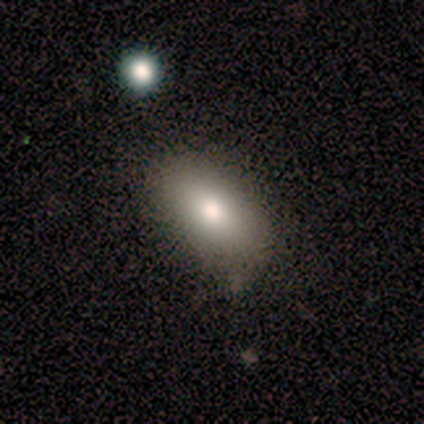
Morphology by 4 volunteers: smooth_or_featured: smooth (p=0.50) [alt: featured or disk p=0.25]
how_rounded: in between (p=1.00)
merging: none (p=1.00)